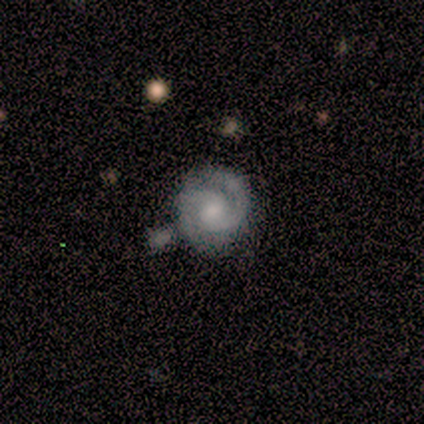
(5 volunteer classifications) A featured or disk galaxy (100%) with a weak bar (60%), 2 (100%) tight (60%) spiral arms (100%) and a moderate central bulge (80%).

Vote fractions:
- Smooth or featured? featured or disk: 100% / smooth: 0% / star or artifact: 0%
- Edge-on disk? no: 100% / yes: 0%
- Bar? weak: 60% / no: 40% / strong: 0%
- Spiral arms? yes: 100% / no: 0%
- Spiral winding? tight: 60% / medium: 40% / loose: 0%
- Spiral arm count? 2: 100% / 1: 0% / 3: 0% / 4: 0% / more than 4: 0% / can't tell: 0%
- Bulge size? moderate: 80% / large: 20% / dominant: 0% / small: 0% / none: 0%
- Merging? minor disturbance: 40% / none: 20% / major disturbance: 20% / merger: 20%